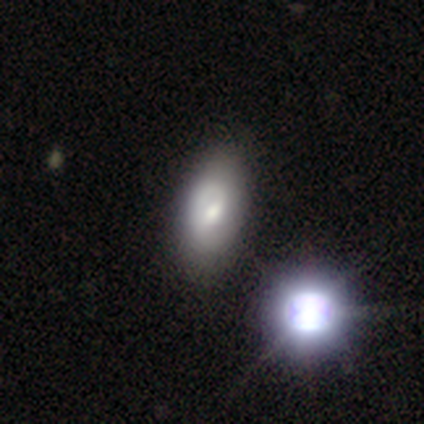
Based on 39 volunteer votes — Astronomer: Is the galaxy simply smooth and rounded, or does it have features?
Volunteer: featured or disk — 56% (runner-up: smooth, 33%).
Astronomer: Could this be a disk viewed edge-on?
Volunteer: no — 100%.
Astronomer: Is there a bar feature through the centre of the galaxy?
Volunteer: no — 59% (runner-up: weak, 36%).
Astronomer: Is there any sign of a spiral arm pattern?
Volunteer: yes — 73%.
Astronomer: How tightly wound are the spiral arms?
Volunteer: tight — 62%.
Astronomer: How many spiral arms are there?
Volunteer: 1 — 69%.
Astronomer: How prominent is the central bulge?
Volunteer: moderate — 45% (runner-up: small, 32%).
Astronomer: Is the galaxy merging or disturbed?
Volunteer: none — 60%.